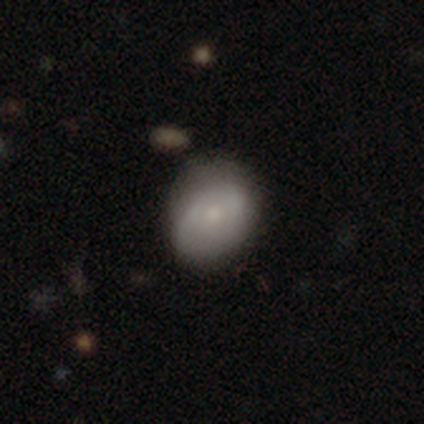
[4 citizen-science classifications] smooth 50% (tied), featured or disk 50% (tied), star or artifact 0%. Down the decision tree: how rounded — round (50%, tied with in between); merging — minor disturbance (50%).